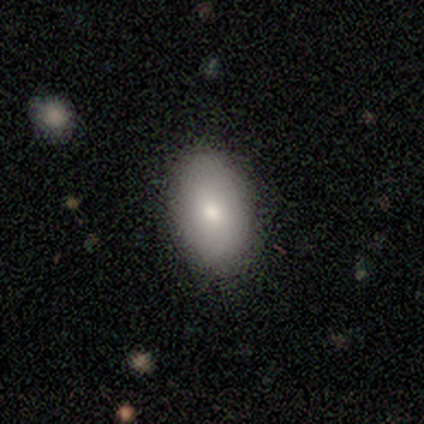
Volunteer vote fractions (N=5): Smooth or featured?
  - smooth: 100% *
  - featured or disk: 0%
  - star or artifact: 0%
How rounded?
  - in between: 80% *
  - round: 20%
  - cigar-shaped: 0%
Merging?
  - none: 80% *
  - minor disturbance: 20%
  - major disturbance: 0%
  - merger: 0%